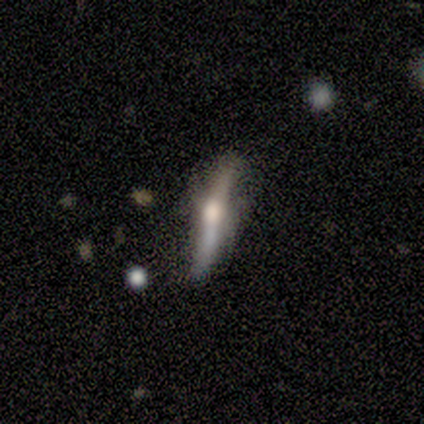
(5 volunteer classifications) A featured or disk galaxy (80%) viewed edge-on (75%) with a rounded central bulge (67%).

Vote fractions:
- Smooth or featured? featured or disk: 80% / smooth: 20% / star or artifact: 0%
- Edge-on disk? yes: 75% / no: 25%
- Edge-on bulge? rounded: 67% / none: 33% / boxy: 0%
- Merging? none: 80% / minor disturbance: 20% / major disturbance: 0% / merger: 0%